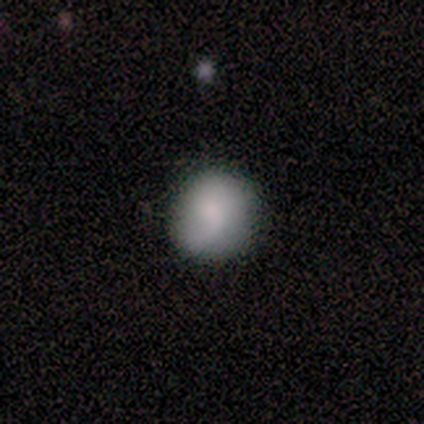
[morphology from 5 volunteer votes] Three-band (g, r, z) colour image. It shows a smooth galaxy with no disk features (100%) that is round (100%). Merging: none (60%).